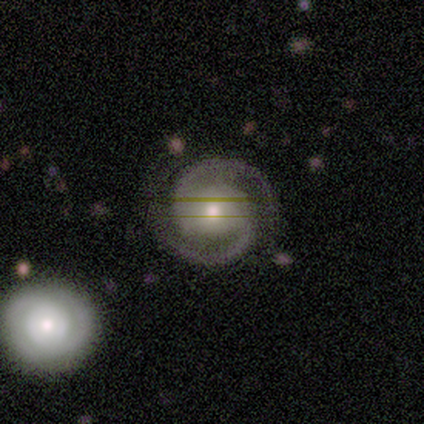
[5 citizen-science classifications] Smooth or featured? featured or disk (100%)
Edge-on disk? no (100%)
Bar? no (60%)
Spiral arms? yes (100%)
Spiral winding? tight (80%)
Spiral arm count? 2 (100%)
Bulge size? moderate (80%)
Merging? none (80%)